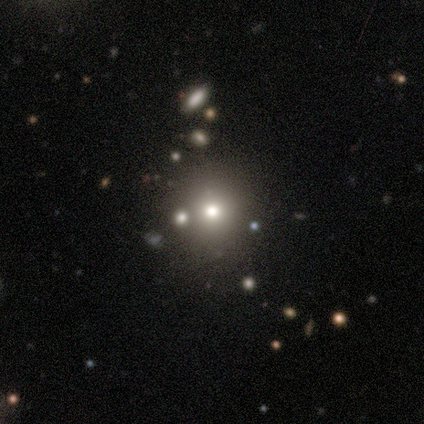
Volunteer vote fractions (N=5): This appears to be a smooth galaxy with no disk features (80%) that is round (100%). Merging: none (75%).